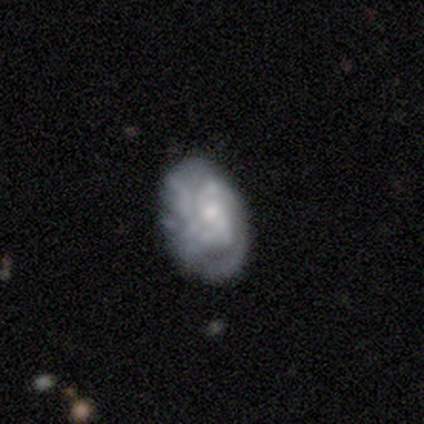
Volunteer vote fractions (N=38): A featured or disk galaxy (63%) with no bar (83%), tight (44%) spiral arms (70%) and a small central bulge (52%). Merging: none (58%).